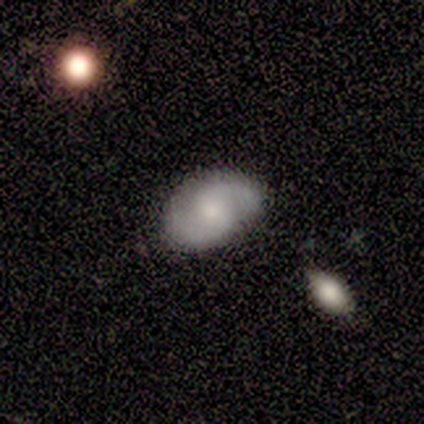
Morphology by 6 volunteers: This appears to be a featured or disk galaxy (67%) with a weak bar (50%, tied with no), 2 (100%) medium (50%) spiral arms (100%) and a moderate central bulge (50%). Merging: none (80%).